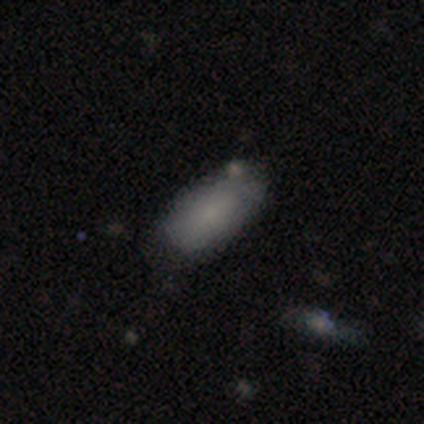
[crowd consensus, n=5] Smooth or featured? smooth (80%)
How rounded? in between (100%)
Merging? none (60%)